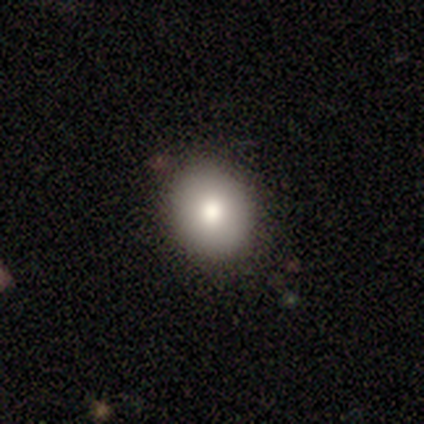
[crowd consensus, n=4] Q: Smooth or featured?
A: smooth (75%); runner-up: featured or disk (25%)
Q: How rounded?
A: round (67%); runner-up: in between (33%)
Q: Merging?
A: none (75%); runner-up: minor disturbance (25%)